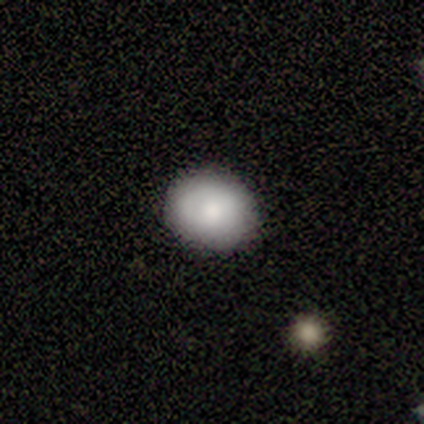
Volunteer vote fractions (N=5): Q: Smooth or featured?
A: smooth (100%)
Q: How rounded?
A: round (100%)
Q: Merging?
A: none (80%); runner-up: minor disturbance (20%)